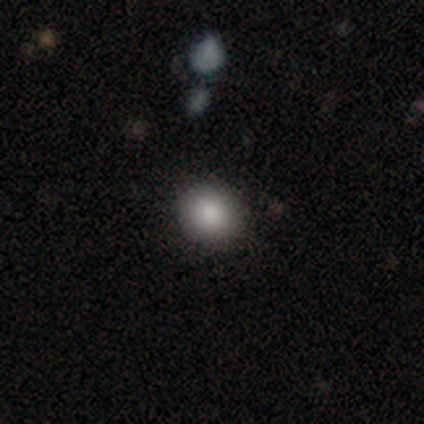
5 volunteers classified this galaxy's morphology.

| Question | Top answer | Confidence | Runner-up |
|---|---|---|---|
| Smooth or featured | smooth | 100% | — |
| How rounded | round | 60% | in between (40%) |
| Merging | none | 100% | — |